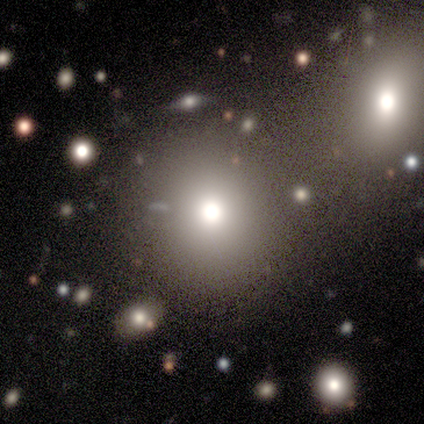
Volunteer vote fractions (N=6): Morphology: type=smooth (50%); roundness=round (100%); merging=none (60%).